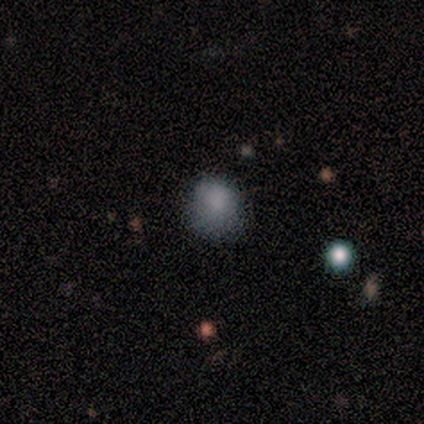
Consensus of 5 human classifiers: Smooth or featured? smooth (80%)
How rounded? round (75%)
Merging? none (50%, tied with minor disturbance)